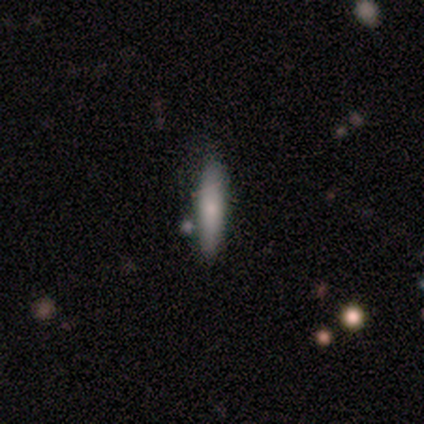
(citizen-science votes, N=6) A smooth galaxy with no disk features (83%) that is cigar-shaped (100%). Merging: none (100%).